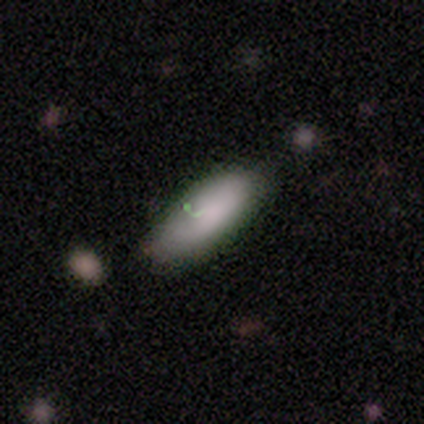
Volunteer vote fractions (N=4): smooth 100%, featured or disk 0%, star or artifact 0%. Down the decision tree: how rounded — in between (75%); merging — none (75%).